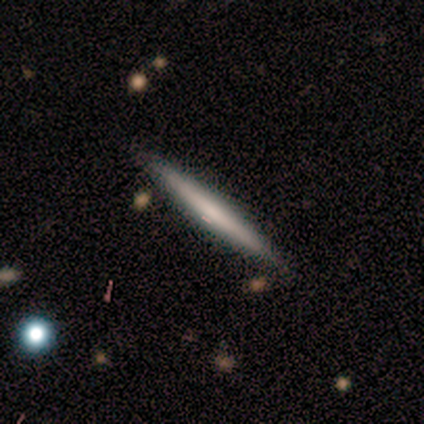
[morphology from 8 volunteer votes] This is likely a featured or disk galaxy (62%). It is clearly viewed edge-on (100%). Edge-on bulge: likely none (60%). Merging: clearly none (88%).